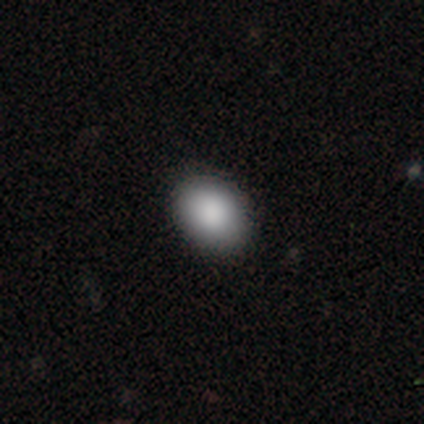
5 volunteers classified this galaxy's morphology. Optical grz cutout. It shows a smooth galaxy with no disk features (100%) that is in between round and cigar-shaped (80%). Merging: none (80%).